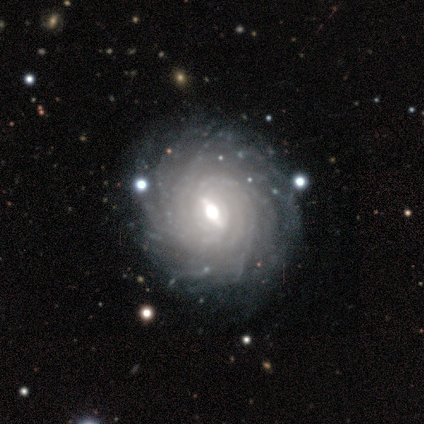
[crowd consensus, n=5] This appears to be a featured or disk galaxy (100%) with a weak bar (60%), more than 4 (40%, tied with can't tell) tight (100%) spiral arms (100%) and a moderate central bulge (100%). Merging: none (80%).